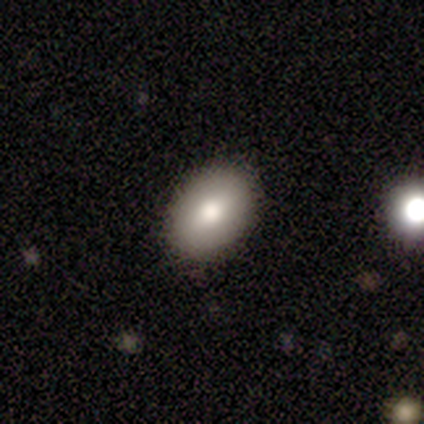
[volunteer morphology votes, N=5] type=smooth (100%); roundness=in between (80%); merging=none (100%).